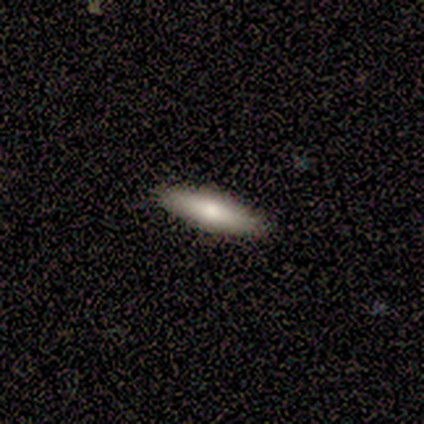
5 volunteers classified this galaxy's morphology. Smooth or featured?
  - smooth: 60% *
  - featured or disk: 40%
  - star or artifact: 0%
How rounded?
  - cigar-shaped: 67% *
  - in between: 33%
  - round: 0%
Merging?
  - none: 80% *
  - minor disturbance: 20%
  - major disturbance: 0%
  - merger: 0%